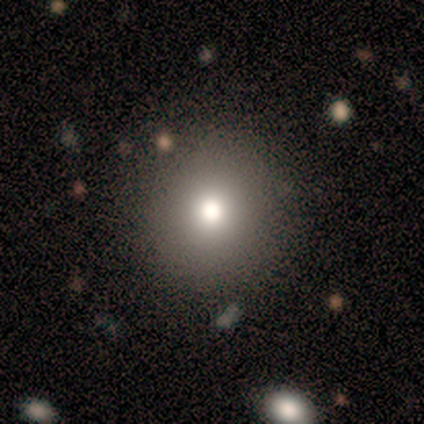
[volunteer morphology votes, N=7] Smooth or featured: smooth — 100%
How rounded: round — 100%
Merging: none — 86% (minor disturbance — 14%)